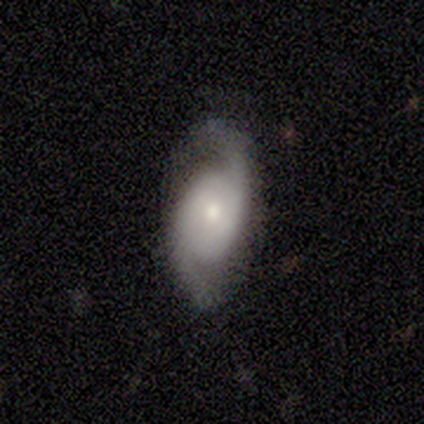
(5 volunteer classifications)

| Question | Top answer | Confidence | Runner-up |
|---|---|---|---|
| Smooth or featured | featured or disk | 40% | tied: star or artifact (40%) |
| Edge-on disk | no | 100% | — |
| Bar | weak | 50% | tied: no (50%) |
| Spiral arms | yes | 100% | — |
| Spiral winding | medium | 100% | — |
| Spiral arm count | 2 | 100% | — |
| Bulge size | moderate | 100% | — |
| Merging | none | 33% | tied: minor disturbance (33%), major disturbance (33%) |